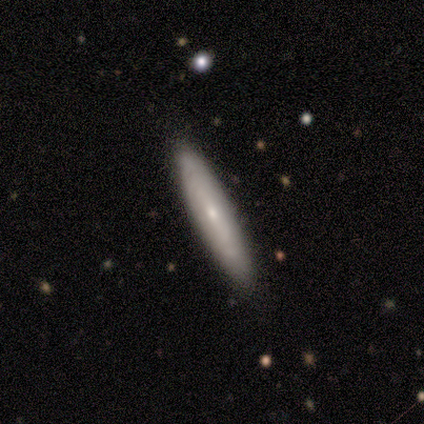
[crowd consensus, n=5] smooth 60%, featured or disk 40%, star or artifact 0%. Down the decision tree: how rounded — cigar-shaped (100%); merging — none (100%).